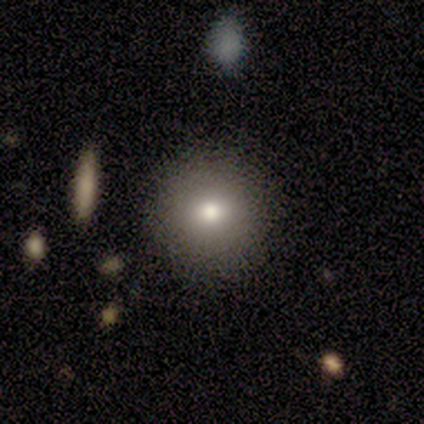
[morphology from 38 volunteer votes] smooth 76%, featured or disk 13%, star or artifact 11%. Down the decision tree: how rounded — round (93%); merging — none (76%).